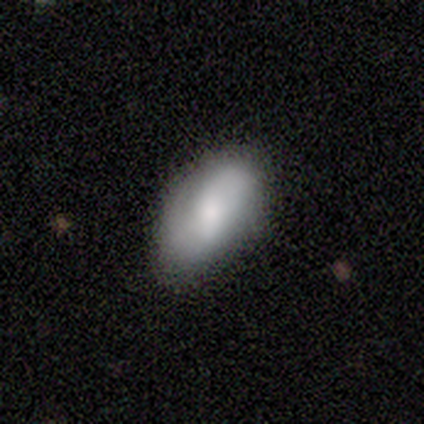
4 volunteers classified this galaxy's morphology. A smooth galaxy with no disk features (75%) that is in between round and cigar-shaped (100%).

Vote fractions:
- Smooth or featured? smooth: 75% / featured or disk: 25% / star or artifact: 0%
- How rounded? in between: 100% / round: 0% / cigar-shaped: 0%
- Merging? none: 75% / minor disturbance: 25% / major disturbance: 0% / merger: 0%